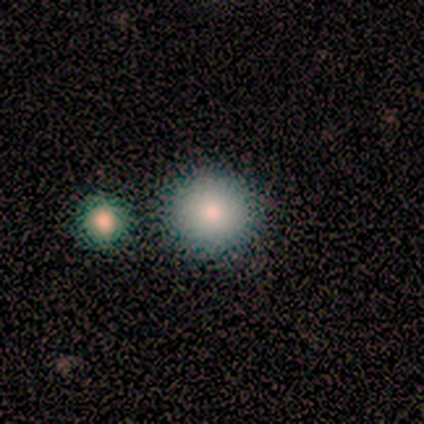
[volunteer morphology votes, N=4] smooth_or_featured: smooth (p=1.00)
how_rounded: round (p=1.00)
merging: none (p=0.75) [alt: merger p=0.25]